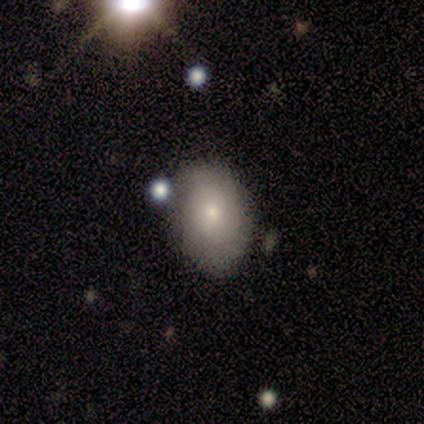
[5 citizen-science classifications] Smooth or featured? 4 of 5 (80%) said smooth. How rounded? 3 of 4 (75%) said in between. Merging? 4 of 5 (80%) said none.